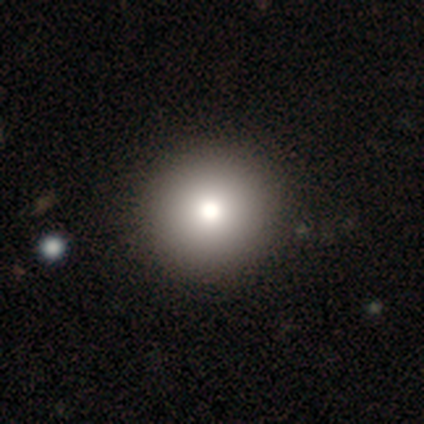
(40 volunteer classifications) smooth 82%, featured or disk 15%, star or artifact 2%. Down the decision tree: how rounded — round (94%); merging — none (59%).